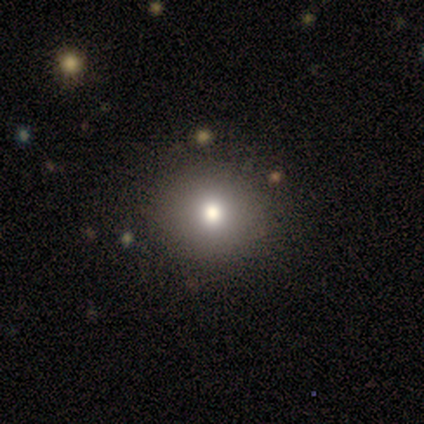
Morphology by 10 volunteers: Smooth or featured? smooth (80%)
How rounded? round (100%)
Merging? none (100%)